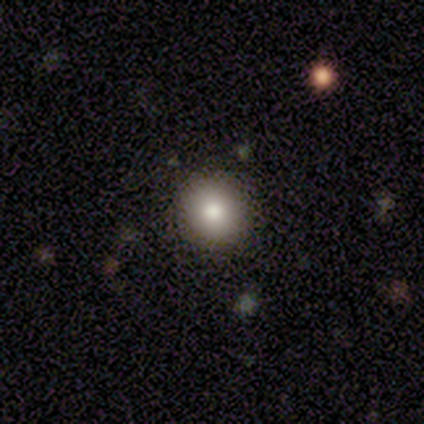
This appears to be a smooth galaxy with no disk features (86%) that is round (94%). Merging: none (94%).